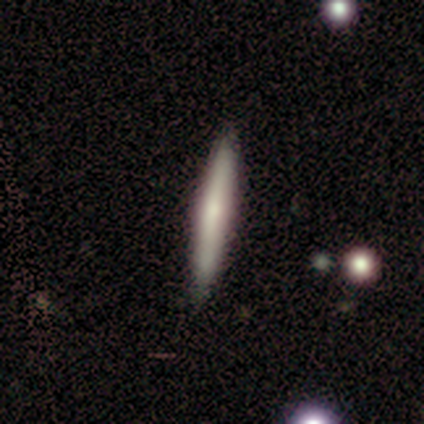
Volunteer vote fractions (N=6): This is clearly a featured or disk galaxy (83%). It is clearly viewed edge-on (80%). Edge-on bulge: likely rounded (75%). Merging: clearly none (83%).